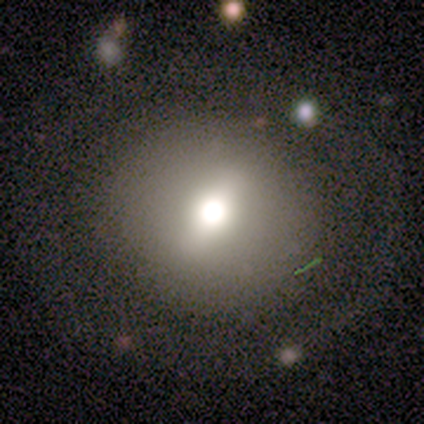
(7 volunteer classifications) smooth-or-featured: smooth: 71% | featured or disk: 29% | star or artifact: 0%
  how-rounded: round: 100% | in between: 0% | cigar-shaped: 0%
  merging: none: 86% | minor disturbance: 14% | major disturbance: 0% | merger: 0%